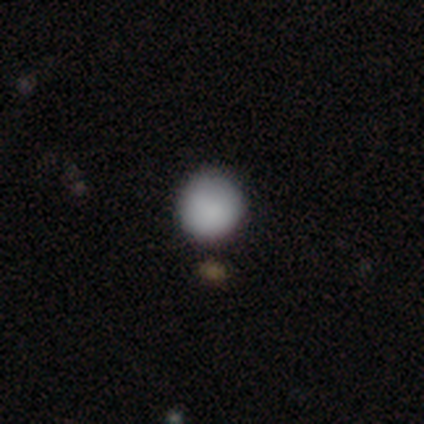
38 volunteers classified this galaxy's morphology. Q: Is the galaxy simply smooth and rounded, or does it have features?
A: smooth — 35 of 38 (92%).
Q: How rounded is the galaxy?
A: round — 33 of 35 (94%).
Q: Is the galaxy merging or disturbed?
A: none — 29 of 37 (78%).